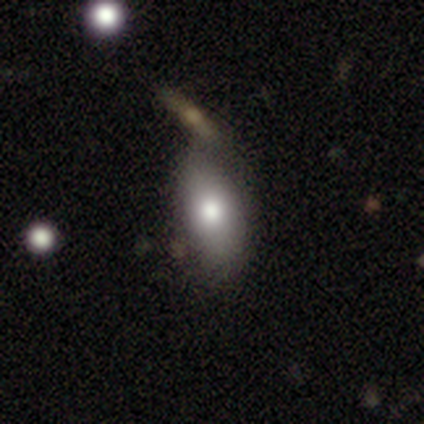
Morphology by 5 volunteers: Q: Smooth or featured?
A: smooth (80%); runner-up: featured or disk (20%)
Q: How rounded?
A: in between (100%)
Q: Merging?
A: none (80%); runner-up: minor disturbance (20%)